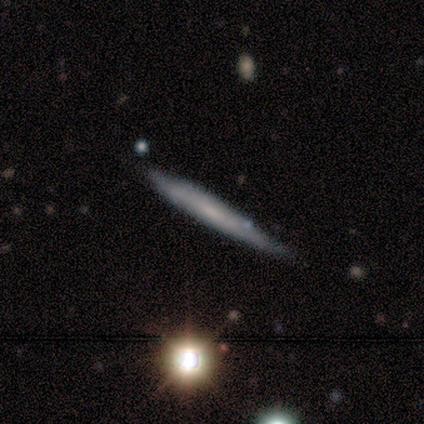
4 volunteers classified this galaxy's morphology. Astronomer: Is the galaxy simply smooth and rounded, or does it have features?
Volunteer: smooth — 50%, tied with featured or disk at 50%.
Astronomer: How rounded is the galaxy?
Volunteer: cigar-shaped — 100%.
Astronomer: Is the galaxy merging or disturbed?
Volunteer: none — 75%.